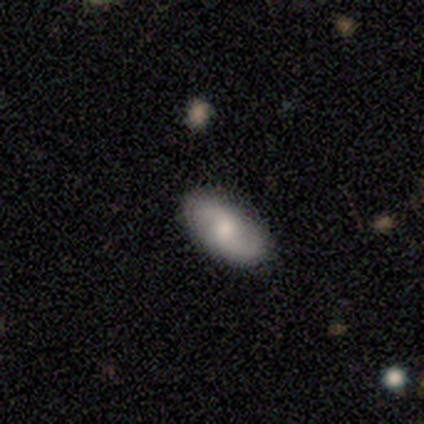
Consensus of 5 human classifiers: Overall: featured or disk (60%; smooth 40%). Edge-on disk: no (100%). Bar: no (67%; weak 33%). Spiral arms: yes (100%). Spiral arm count: 2 (100%). Spiral winding: tight (33%, tied with medium and loose). Bulge size: moderate (33%, tied with small and none). Merging: none (80%).